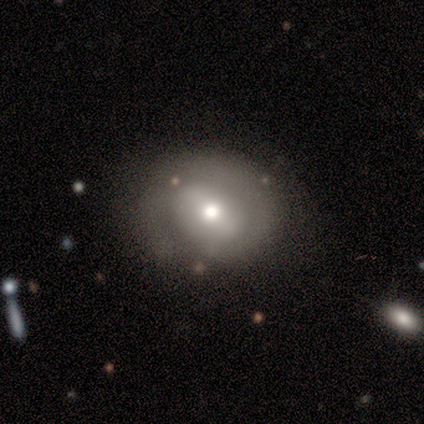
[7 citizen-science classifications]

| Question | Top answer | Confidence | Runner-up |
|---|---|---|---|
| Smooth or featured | smooth | 57% | featured or disk (43%) |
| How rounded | round | 75% | in between (25%) |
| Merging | none | 100% | — |